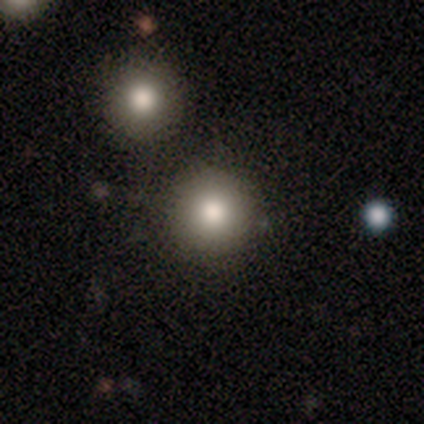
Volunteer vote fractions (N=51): Q: Smooth or featured?
A: smooth (71%); runner-up: star or artifact (18%)
Q: How rounded?
A: round (100%)
Q: Merging?
A: none (86%); runner-up: minor disturbance (10%)